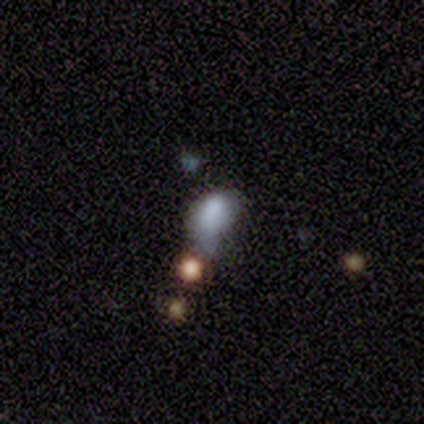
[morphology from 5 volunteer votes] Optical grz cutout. It shows a smooth galaxy with no disk features (100%) that is in between round and cigar-shaped (60%). Merging: none (60%).